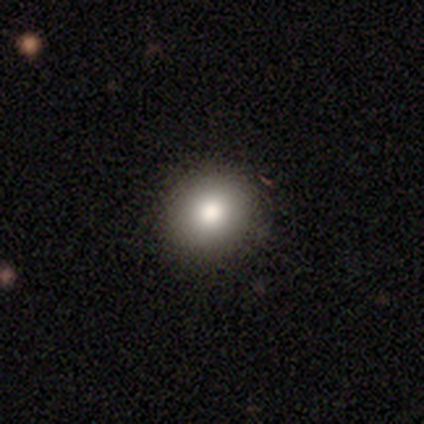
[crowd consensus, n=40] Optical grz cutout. It shows a smooth galaxy with no disk features (88%) that is round (71%). Merging: none (74%).